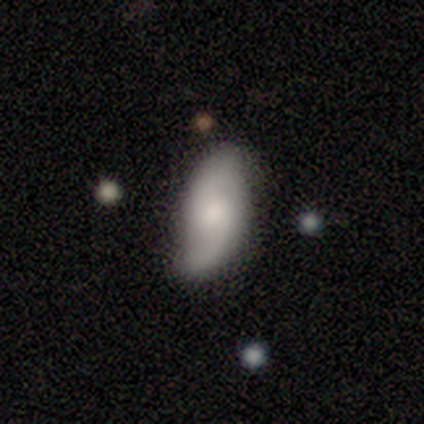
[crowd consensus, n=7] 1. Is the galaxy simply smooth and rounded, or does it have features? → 71% featured or disk, 29% smooth, 0% star or artifact.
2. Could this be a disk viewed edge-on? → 100% no, 0% yes.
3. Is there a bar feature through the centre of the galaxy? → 80% no, 20% weak, 0% strong.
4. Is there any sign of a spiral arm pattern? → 100% yes, 0% no.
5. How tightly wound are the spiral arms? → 100% loose, 0% tight, 0% medium.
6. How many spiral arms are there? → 100% 2, 0% 1, 0% 3, 0% 4, 0% more than 4, 0% can't tell.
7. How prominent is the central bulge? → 60% small, 40% moderate, 0% dominant, 0% large, 0% none.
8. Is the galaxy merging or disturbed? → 100% none, 0% minor disturbance, 0% major disturbance, 0% merger.